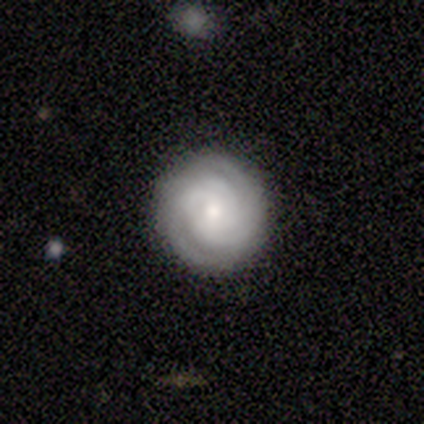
A featured or disk galaxy (100%) with no bar (60%), 2 (40%, tied with 3) tight (80%) spiral arms (100%) and a small central bulge (80%).

Vote fractions:
- Smooth or featured? featured or disk: 100% / smooth: 0% / star or artifact: 0%
- Edge-on disk? no: 100% / yes: 0%
- Bar? no: 60% / strong: 20% / weak: 20%
- Spiral arms? yes: 100% / no: 0%
- Spiral winding? tight: 80% / medium: 20% / loose: 0%
- Spiral arm count? 2: 40% (tied) / 3: 40% (tied) / more than 4: 20% / 1: 0% / 4: 0% / can't tell: 0%
- Bulge size? small: 80% / moderate: 20% / dominant: 0% / large: 0% / none: 0%
- Merging? none: 80% / minor disturbance: 20% / major disturbance: 0% / merger: 0%